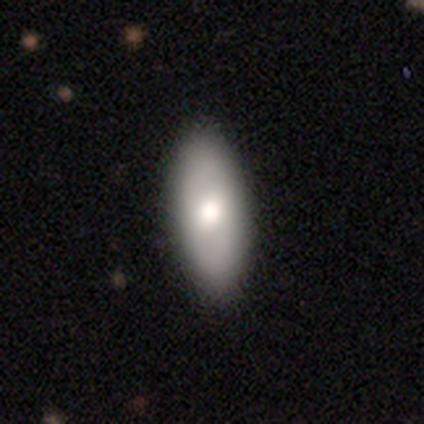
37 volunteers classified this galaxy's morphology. type=smooth (62%); roundness=in between (96%); merging=none (50%).